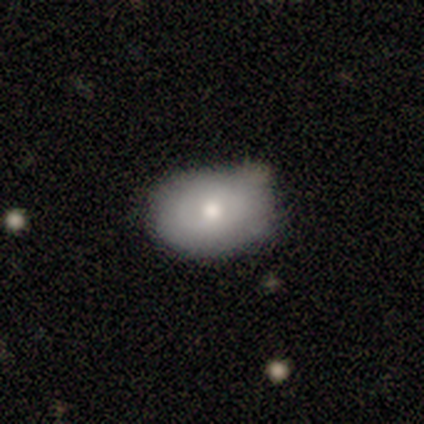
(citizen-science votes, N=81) smooth-or-featured: smooth: 75% | featured or disk: 22% | star or artifact: 2%
  how-rounded: in between: 82% | round: 18% | cigar-shaped: 0%
  merging: none: 65% | minor disturbance: 32% | major disturbance: 3% | merger: 1%